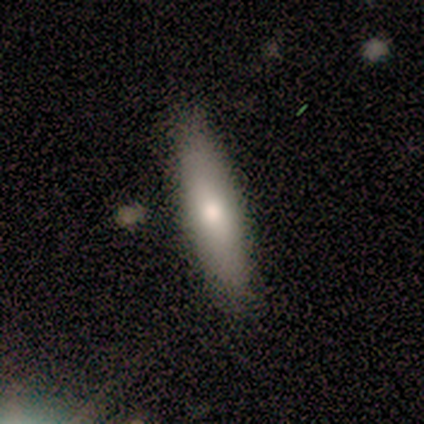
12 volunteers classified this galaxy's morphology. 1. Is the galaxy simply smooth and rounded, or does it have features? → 75% smooth, 25% featured or disk, 0% star or artifact.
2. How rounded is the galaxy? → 67% in between, 33% cigar-shaped, 0% round.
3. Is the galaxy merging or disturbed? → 100% none, 0% minor disturbance, 0% major disturbance, 0% merger.